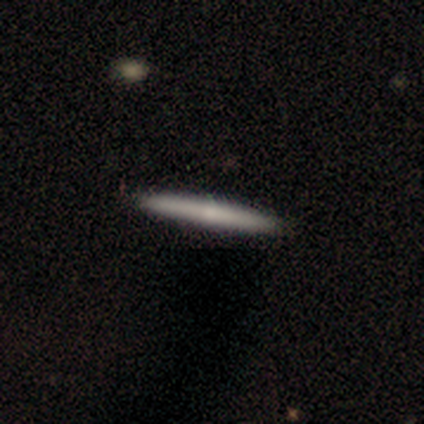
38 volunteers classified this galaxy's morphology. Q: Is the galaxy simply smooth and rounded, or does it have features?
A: featured or disk — 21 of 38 (55%).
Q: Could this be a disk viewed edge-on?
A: yes — 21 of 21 (100%).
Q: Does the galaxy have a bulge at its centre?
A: none — 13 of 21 (62%).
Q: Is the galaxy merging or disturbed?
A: none — 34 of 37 (92%).